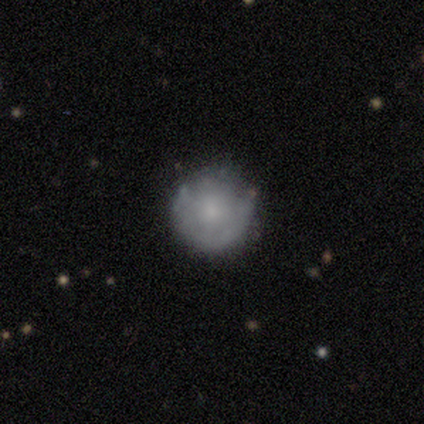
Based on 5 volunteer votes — A smooth galaxy with no disk features (80%) that is round (100%). Merging: none (80%).